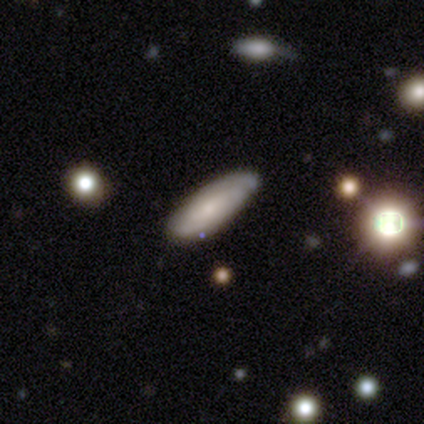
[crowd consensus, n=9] Volunteers were most divided on "spiral arm count" (2-way tie): 2: 50%, can't tell: 50%, 1: 0%, 3: 0%, 4: 0%, more than 4: 0%. More confident: bar — no (100%); bulge size — small (100%); merging — none (89%); edge-on disk — no (83%); spiral arms — yes (80%); spiral winding — tight (75%); smooth or featured — featured or disk (67%).